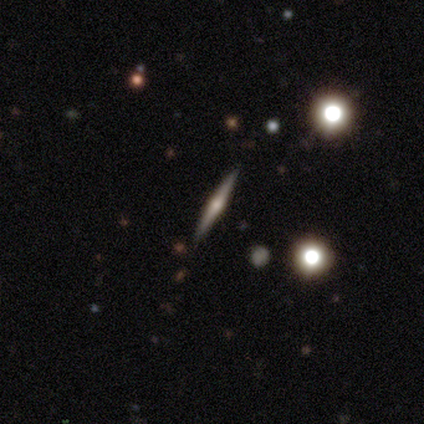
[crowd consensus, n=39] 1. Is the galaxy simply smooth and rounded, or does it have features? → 62% featured or disk, 21% smooth, 18% star or artifact.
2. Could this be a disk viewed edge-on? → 100% yes, 0% no.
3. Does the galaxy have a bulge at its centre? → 88% rounded, 8% boxy, 4% none.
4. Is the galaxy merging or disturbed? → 94% none, 3% minor disturbance, 3% merger, 0% major disturbance.